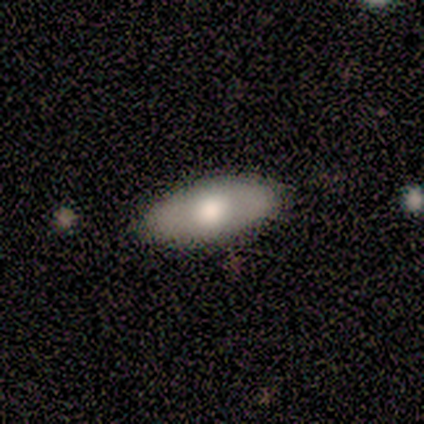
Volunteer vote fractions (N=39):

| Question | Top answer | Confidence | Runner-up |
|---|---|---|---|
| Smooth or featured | smooth | 62% | featured or disk (31%) |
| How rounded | in between | 83% | round (8%) |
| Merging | none | 92% | minor disturbance (8%) |